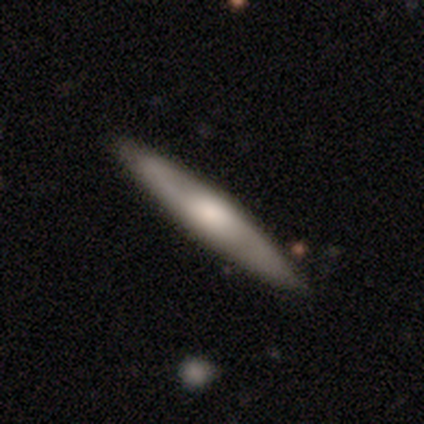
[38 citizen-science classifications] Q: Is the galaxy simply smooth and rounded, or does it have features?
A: smooth — 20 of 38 (53%).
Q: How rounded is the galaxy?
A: cigar-shaped — 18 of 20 (90%).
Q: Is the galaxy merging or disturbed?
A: none — 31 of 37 (84%).